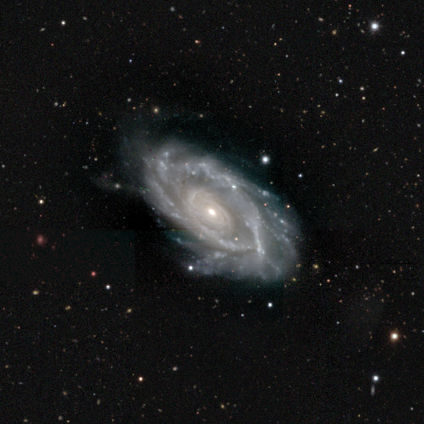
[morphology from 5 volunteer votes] Overall: featured or disk (100%). Edge-on disk: no (100%). Bar: no (100%). Spiral arms: yes (80%). Spiral arm count: 2 (50%; 3 25%). Spiral winding: tight (75%). Bulge size: small (80%). Merging: none (60%; major disturbance 40%).